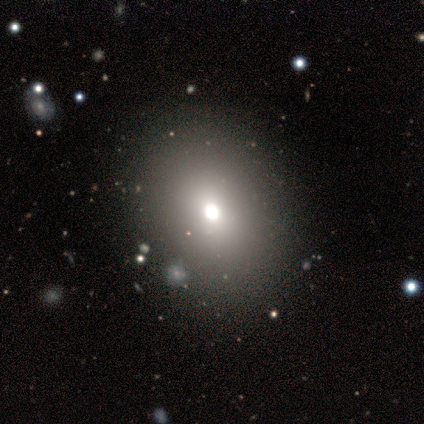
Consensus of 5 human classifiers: Smooth or featured: smooth — 60% (featured or disk — 20%)
How rounded: in between — 67% (round — 33%)
Merging: none — 75% (minor disturbance — 25%)